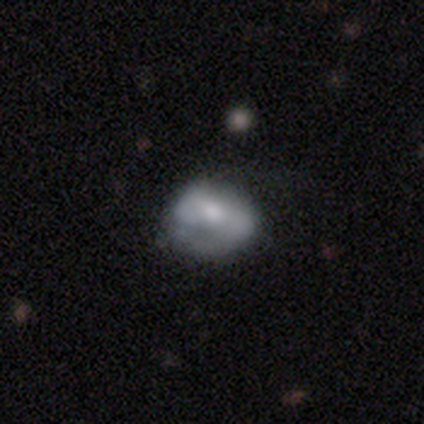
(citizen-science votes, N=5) Smooth or featured? 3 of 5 (60%) said featured or disk. Edge-on disk? 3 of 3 (100%) said no. Bar? 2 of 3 (67%) said strong. Spiral arms? 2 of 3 (67%) said yes. Spiral winding? 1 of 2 (50%, tied with medium) said tight. Spiral arm count? 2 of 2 (100%) said 2. Bulge size? 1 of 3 (33%, tied with small and none) said large. Merging? 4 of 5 (80%) said none.